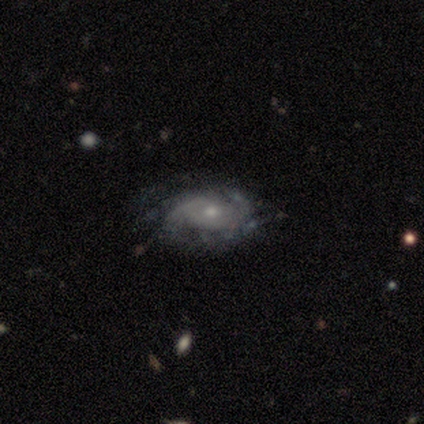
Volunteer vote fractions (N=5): This is clearly a featured or disk galaxy (80%). It is clearly not viewed edge-on (100%). Bar: likely no (75%). Spiral arm pattern: likely yes (75%). Spiral arm count: likely can't tell (67%). Spiral winding: likely tight (67%). Central bulge: possibly moderate (50%, tied with small). Merging: likely minor disturbance (60%).